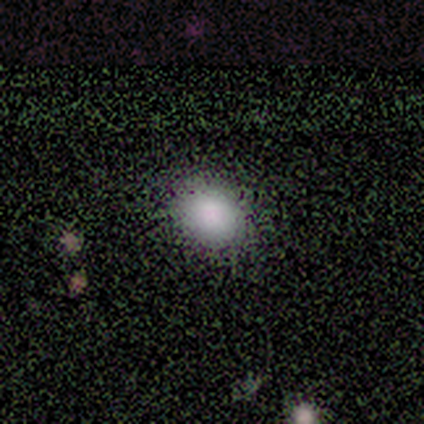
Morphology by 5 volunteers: smooth 80%, star or artifact 20%, featured or disk 0%. Down the decision tree: how rounded — round (100%); merging — none (100%).